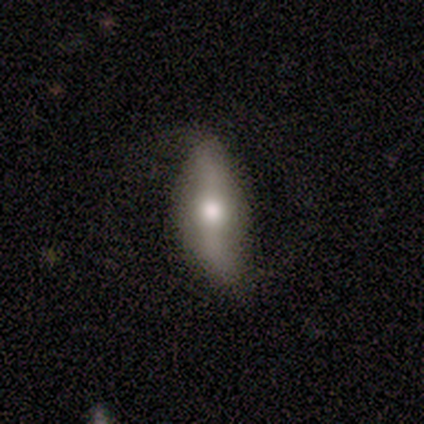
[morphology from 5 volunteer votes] Smooth or featured: featured or disk — 60% (smooth — 20%)
Edge-on disk: no — 67% (yes — 33%)
Bar: strong — 50% (tied with no — 50%)
Spiral arms: yes — 50% (tied with no — 50%)
Spiral winding: medium — 100%
Spiral arm count: 2 — 100%
Bulge size: moderate — 50% (tied with none — 50%)
Merging: none — 75% (major disturbance — 25%)